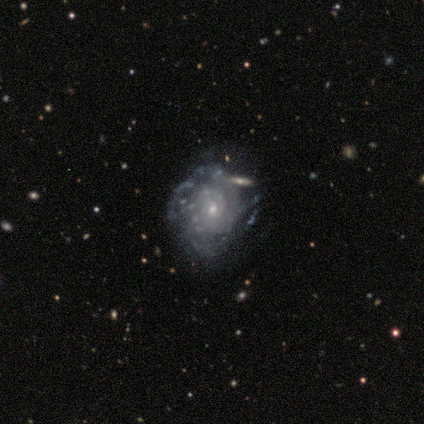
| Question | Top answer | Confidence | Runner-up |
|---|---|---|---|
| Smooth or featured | featured or disk | 84% | smooth (8%) |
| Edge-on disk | no | 93% | yes (7%) |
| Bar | no | 66% | weak (32%) |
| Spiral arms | yes | 79% | no (21%) |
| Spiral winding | tight | 60% | medium (30%) |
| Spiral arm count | can't tell | 40% | 2 (20%) |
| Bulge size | small | 82% | moderate (18%) |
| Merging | none | 49% | minor disturbance (31%) |